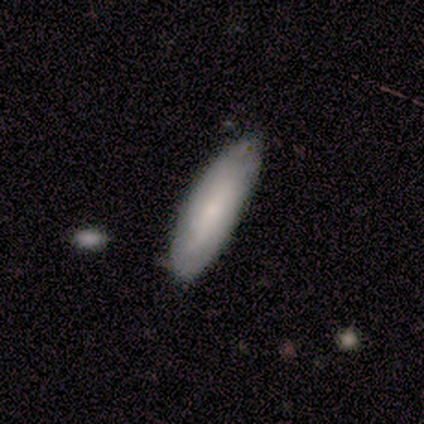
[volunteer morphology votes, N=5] A smooth galaxy with no disk features (40%, tied with featured or disk) that is in between round and cigar-shaped (50%, tied with cigar-shaped).

Vote fractions:
- Smooth or featured? smooth: 40% (tied) / featured or disk: 40% (tied) / star or artifact: 20%
- How rounded? in between: 50% (tied) / cigar-shaped: 50% (tied) / round: 0%
- Merging? none: 50% (tied) / minor disturbance: 50% (tied) / major disturbance: 0% / merger: 0%